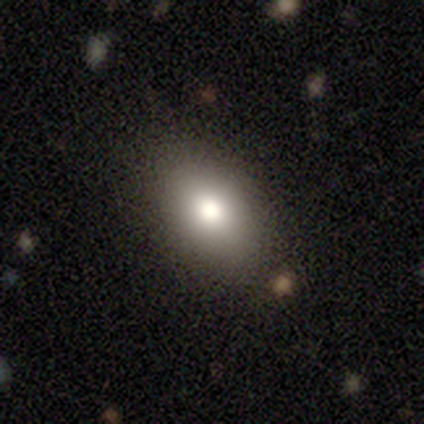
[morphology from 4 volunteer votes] Smooth or featured?
  - smooth: 100% *
  - featured or disk: 0%
  - star or artifact: 0%
How rounded?
  - in between: 75% *
  - cigar-shaped: 25%
  - round: 0%
Merging?
  - none: 100% *
  - minor disturbance: 0%
  - major disturbance: 0%
  - merger: 0%